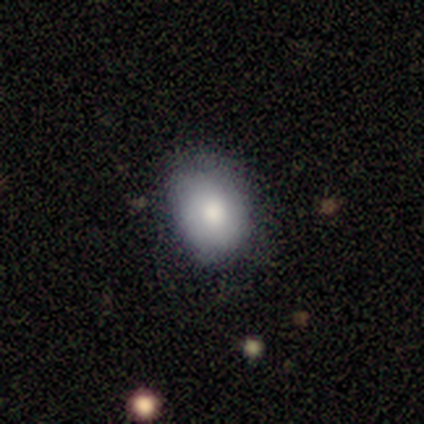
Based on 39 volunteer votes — smooth_or_featured: smooth (p=0.69) [alt: star or artifact p=0.23]
how_rounded: in between (p=0.67) [alt: round p=0.33]
merging: none (p=0.67) [alt: minor disturbance p=0.33]